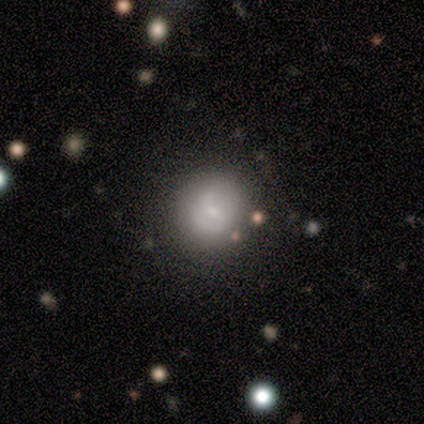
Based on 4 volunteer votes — smooth-or-featured: smooth: 75% | featured or disk: 25% | star or artifact: 0%
  how-rounded: round: 100% | in between: 0% | cigar-shaped: 0%
  merging: none: 100% | minor disturbance: 0% | major disturbance: 0% | merger: 0%